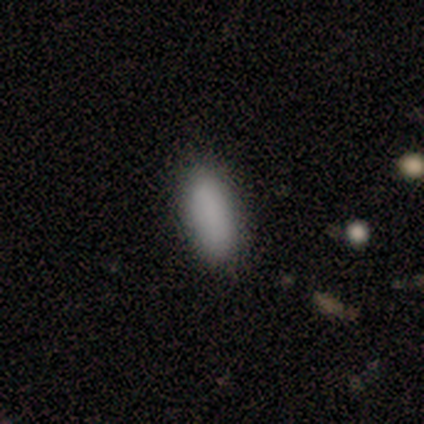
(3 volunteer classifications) A smooth galaxy with no disk features (100%) that is in between round and cigar-shaped (100%). Merging: none (100%).